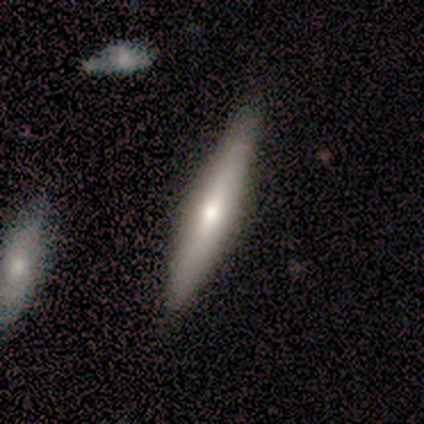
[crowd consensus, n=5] Volunteers were most divided on "edge-on bulge": rounded: 50%, boxy: 25%, none: 25%. More confident: edge-on disk — yes (100%); merging — none (100%); smooth or featured — featured or disk (80%).